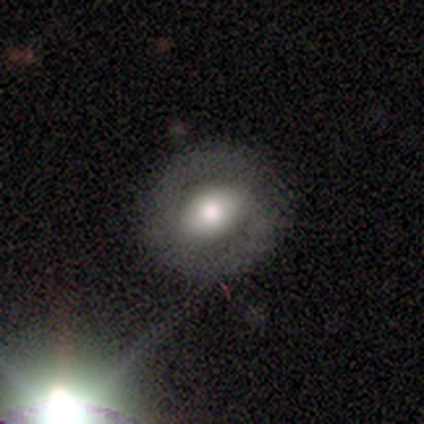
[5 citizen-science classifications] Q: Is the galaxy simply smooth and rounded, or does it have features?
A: smooth — 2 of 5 (40%, tied with featured or disk).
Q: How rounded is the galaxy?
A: round — 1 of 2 (50%, tied with in between).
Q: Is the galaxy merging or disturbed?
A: none — 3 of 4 (75%).